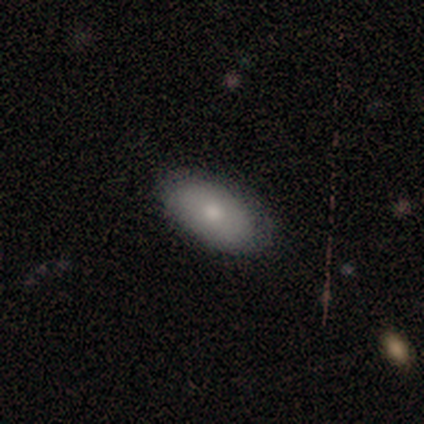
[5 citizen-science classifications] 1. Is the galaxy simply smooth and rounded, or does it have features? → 60% smooth, 20% featured or disk, 20% star or artifact.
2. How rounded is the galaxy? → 100% in between, 0% round, 0% cigar-shaped.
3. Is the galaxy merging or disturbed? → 75% none, 25% minor disturbance, 0% major disturbance, 0% merger.